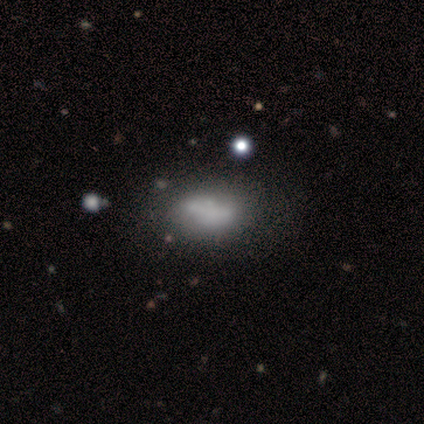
smooth-or-featured: featured or disk: 60% | smooth: 40% | star or artifact: 0%
  disk-edge-on: no: 100% | yes: 0%
    bar: no: 100% | strong: 0% | weak: 0%
    has-spiral-arms: no: 100% | yes: 0%
    bulge-size: none: 100% | dominant: 0% | large: 0% | moderate: 0% | small: 0%
  merging: minor disturbance: 60% | none: 40% | major disturbance: 0% | merger: 0%